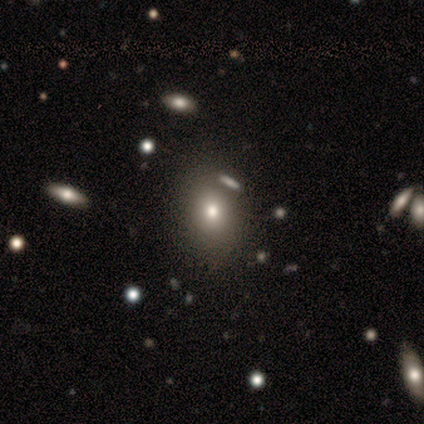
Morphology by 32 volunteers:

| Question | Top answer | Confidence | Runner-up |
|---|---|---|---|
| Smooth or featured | smooth | 69% | featured or disk (16%) |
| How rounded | in between | 59% | round (41%) |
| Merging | none | 81% | minor disturbance (11%) |